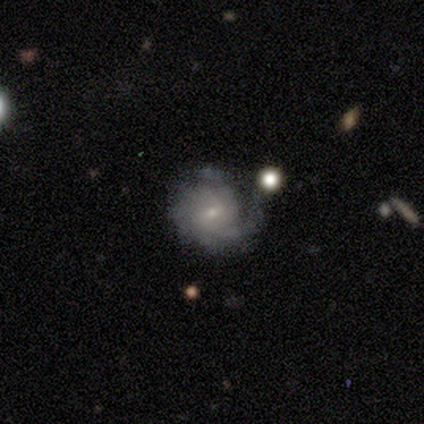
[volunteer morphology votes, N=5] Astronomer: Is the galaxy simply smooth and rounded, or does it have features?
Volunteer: featured or disk — 80%.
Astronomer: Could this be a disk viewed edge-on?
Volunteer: no — 100%.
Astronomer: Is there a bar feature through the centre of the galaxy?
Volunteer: no — 100%.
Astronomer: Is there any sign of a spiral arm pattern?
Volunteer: yes — 100%.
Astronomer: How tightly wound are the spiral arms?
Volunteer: tight — 100%.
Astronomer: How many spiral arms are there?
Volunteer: can't tell — 75%.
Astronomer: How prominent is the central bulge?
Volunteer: small — 100%.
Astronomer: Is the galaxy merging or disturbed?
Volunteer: minor disturbance — 60% (runner-up: major disturbance, 40%).